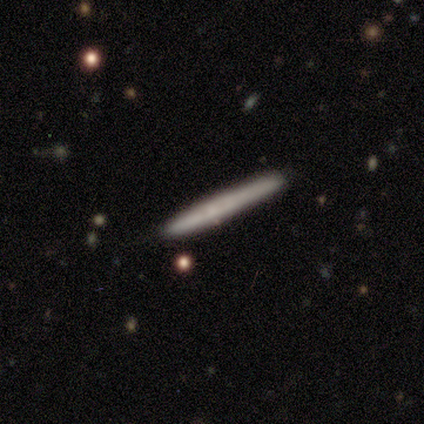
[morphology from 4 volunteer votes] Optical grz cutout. It shows a smooth galaxy with no disk features (50%) that is cigar-shaped (100%). Merging: none (100%).